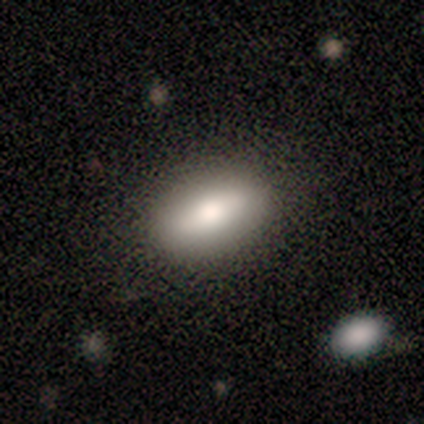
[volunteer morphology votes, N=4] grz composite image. It shows a smooth galaxy with no disk features (75%) that is in between round and cigar-shaped (67%). Merging: none (75%).